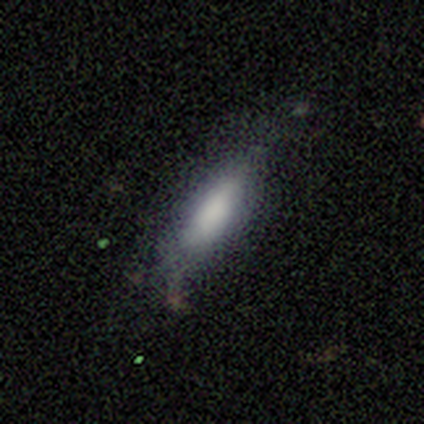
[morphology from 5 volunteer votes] Smooth or featured: featured or disk — 60% (smooth — 40%)
Edge-on disk: yes — 67% (no — 33%)
Edge-on bulge: boxy — 50% (tied with rounded — 50%)
Merging: major disturbance — 60% (none — 40%)